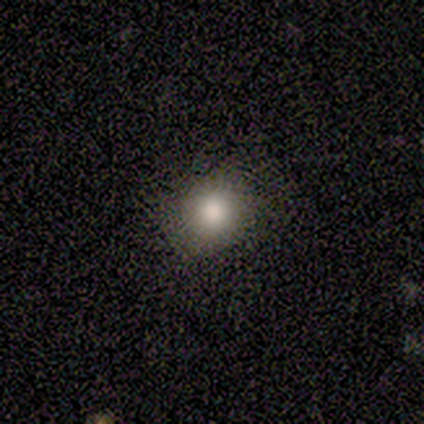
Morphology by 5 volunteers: Volunteers were most divided on "smooth or featured": smooth: 80%, star or artifact: 20%, featured or disk: 0%. More confident: how rounded — round (100%); merging — none (100%).